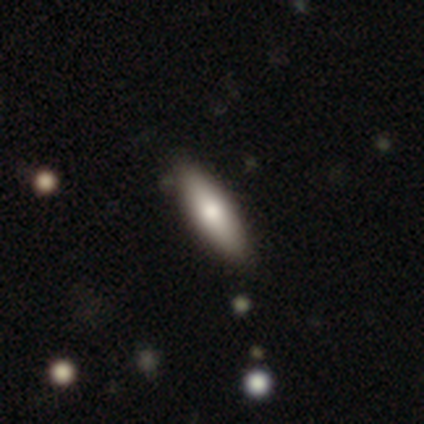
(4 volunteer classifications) smooth_or_featured: smooth (p=1.00)
how_rounded: cigar-shaped (p=0.75) [alt: in between p=0.25]
merging: none (p=1.00)